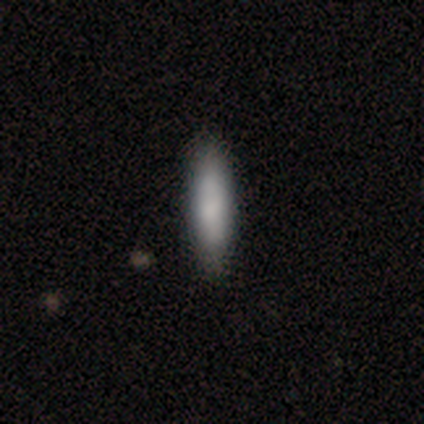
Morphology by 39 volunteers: A smooth galaxy with no disk features (90%) that is cigar-shaped (60%). Merging: none (62%).